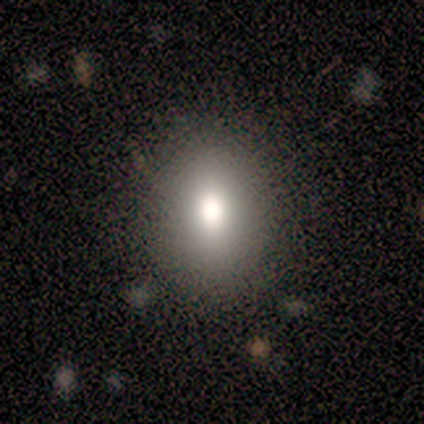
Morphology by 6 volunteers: smooth 67%, featured or disk 33%, star or artifact 0%. Down the decision tree: how rounded — round (50%, tied with in between); merging — none (83%).